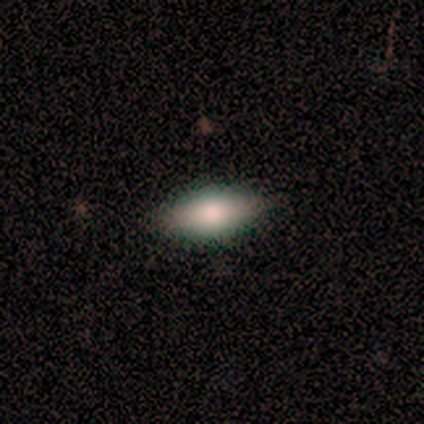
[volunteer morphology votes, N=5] type=smooth (80%); roundness=in between (100%); merging=none (100%).